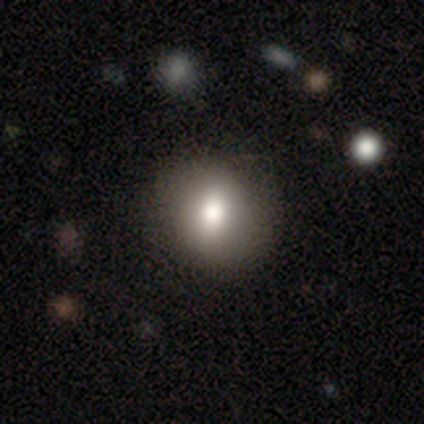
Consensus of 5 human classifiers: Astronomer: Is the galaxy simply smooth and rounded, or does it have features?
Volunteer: smooth — 60% (runner-up: featured or disk, 40%).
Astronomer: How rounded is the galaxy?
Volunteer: round — 100%.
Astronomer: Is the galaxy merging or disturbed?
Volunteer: none — 80%.